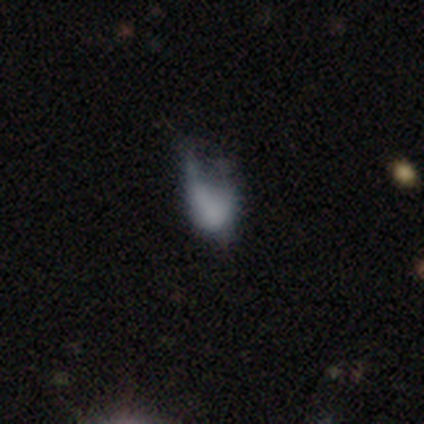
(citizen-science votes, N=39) Smooth or featured? smooth (59%)
How rounded? in between (83%)
Merging? major disturbance (44%)